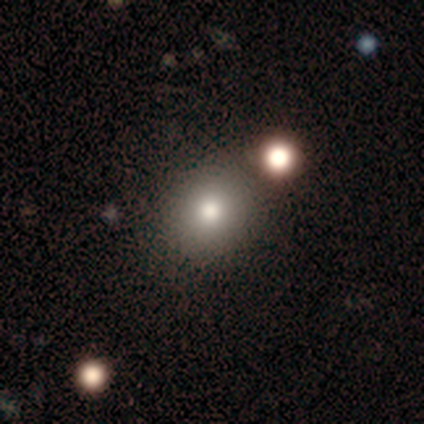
Overall: smooth (74%). How rounded: round (93%). Merging: none (74%).